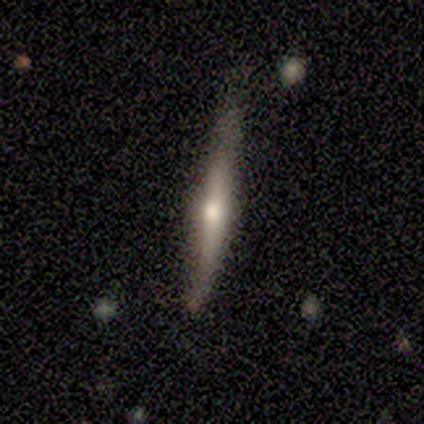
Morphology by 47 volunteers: Smooth or featured?
  - featured or disk: 70% *
  - smooth: 28%
  - star or artifact: 2%
Edge-on disk?
  - yes: 94% *
  - no: 6%
Edge-on bulge?
  - rounded: 90% *
  - none: 6%
  - boxy: 3%
Merging?
  - none: 80% *
  - minor disturbance: 17%
  - merger: 2%
  - major disturbance: 0%